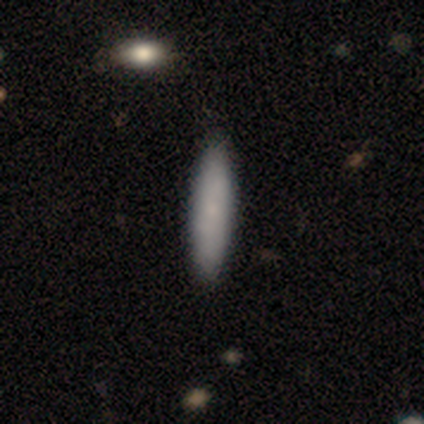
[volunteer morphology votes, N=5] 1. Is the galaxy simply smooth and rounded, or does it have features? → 100% smooth, 0% featured or disk, 0% star or artifact.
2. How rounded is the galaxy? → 60% in between, 40% cigar-shaped, 0% round.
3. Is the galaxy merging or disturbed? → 100% none, 0% minor disturbance, 0% major disturbance, 0% merger.